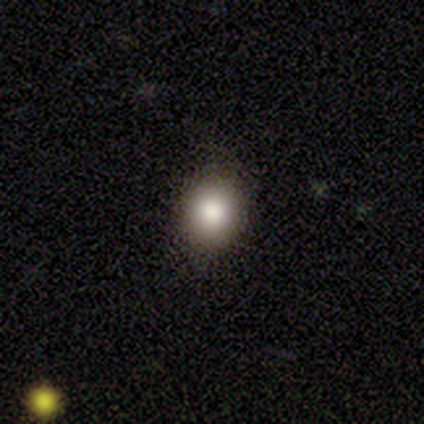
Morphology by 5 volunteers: Smooth or featured?
  - smooth: 100% *
  - featured or disk: 0%
  - star or artifact: 0%
How rounded?
  - round: 100% *
  - in between: 0%
  - cigar-shaped: 0%
Merging?
  - none: 100% *
  - minor disturbance: 0%
  - major disturbance: 0%
  - merger: 0%